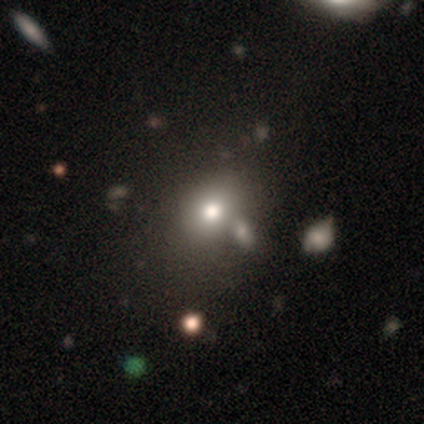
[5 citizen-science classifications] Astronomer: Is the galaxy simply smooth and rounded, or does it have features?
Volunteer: smooth — 60% (runner-up: star or artifact, 40%).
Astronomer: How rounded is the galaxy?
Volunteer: in between — 100%.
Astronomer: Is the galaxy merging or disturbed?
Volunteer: none — 67%.